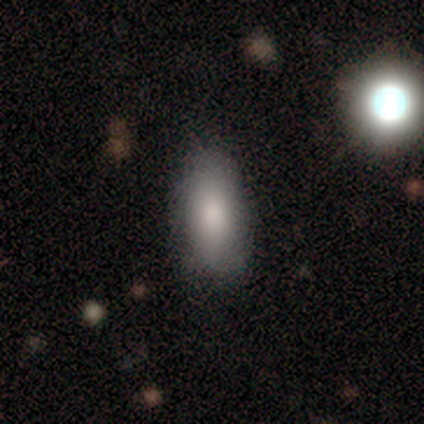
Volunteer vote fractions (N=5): Smooth or featured?
  - smooth: 100% *
  - featured or disk: 0%
  - star or artifact: 0%
How rounded?
  - in between: 80% *
  - cigar-shaped: 20%
  - round: 0%
Merging?
  - none: 80% *
  - minor disturbance: 20%
  - major disturbance: 0%
  - merger: 0%